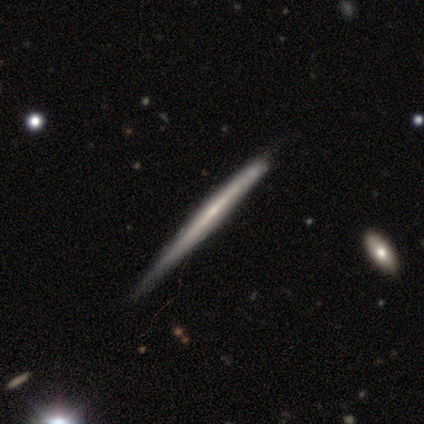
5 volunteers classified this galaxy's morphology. A featured or disk galaxy (60%) viewed edge-on (100%) with no central bulge (67%). Merging: none (80%).